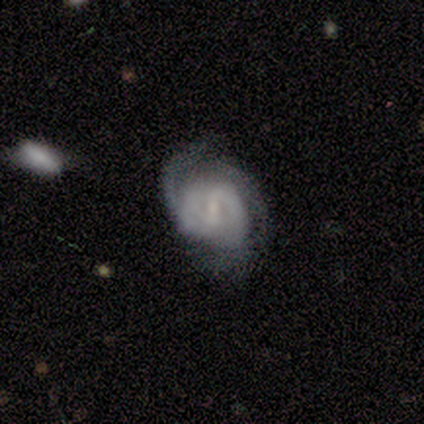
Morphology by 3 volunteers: Smooth or featured? featured or disk (100%)
Edge-on disk? no (100%)
Bar? strong (33%, tied with weak and no)
Spiral arms? yes (100%)
Spiral winding? medium (67%)
Spiral arm count? 2 (33%, tied with 3 and can't tell)
Bulge size? small (67%)
Merging? none (33%, tied with minor disturbance and merger)